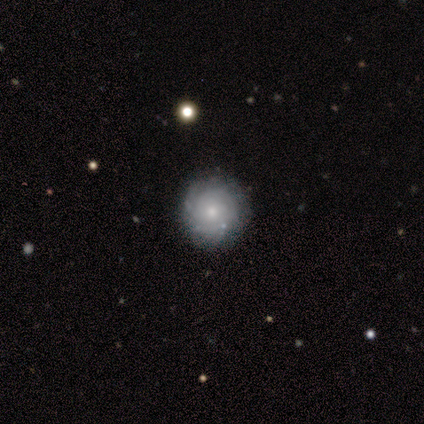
Smooth or featured? featured or disk (70%)
Edge-on disk? no (97%)
Bar? no (92%)
Spiral arms? yes (92%)
Spiral winding? tight (83%)
Spiral arm count? can't tell (61%)
Bulge size? small (61%)
Merging? none (84%)